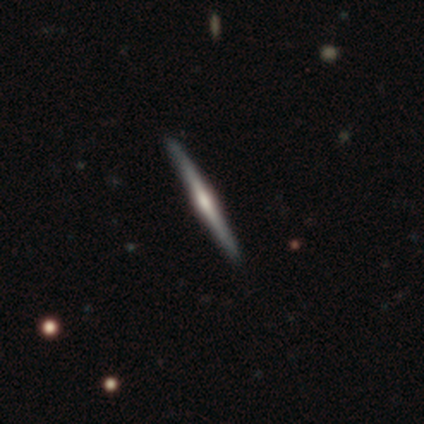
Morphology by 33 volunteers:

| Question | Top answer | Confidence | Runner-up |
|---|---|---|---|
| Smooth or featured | featured or disk | 85% | smooth (12%) |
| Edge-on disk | yes | 100% | — |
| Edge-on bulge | rounded | 71% | boxy (14%) |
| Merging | none | 97% | minor disturbance (3%) |